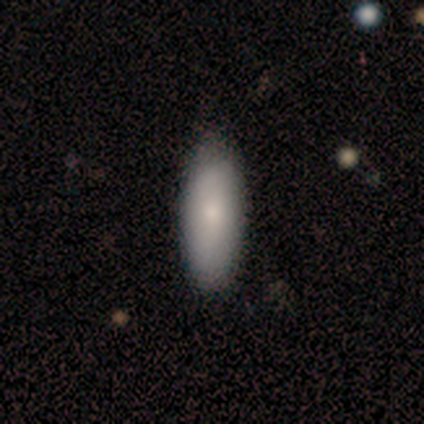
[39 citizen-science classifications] This appears to be a smooth galaxy with no disk features (69%) that is in between round and cigar-shaped (74%). Merging: none (81%).